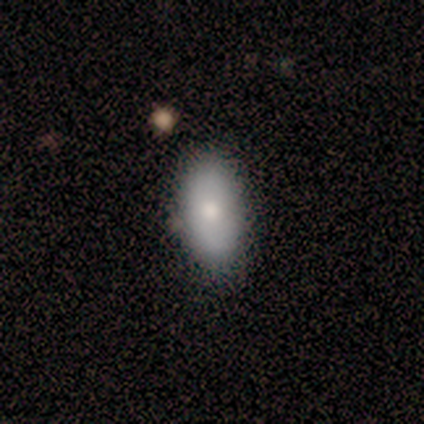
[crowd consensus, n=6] A smooth galaxy with no disk features (100%) that is in between round and cigar-shaped (100%). Merging: none (50%, tied with minor disturbance).